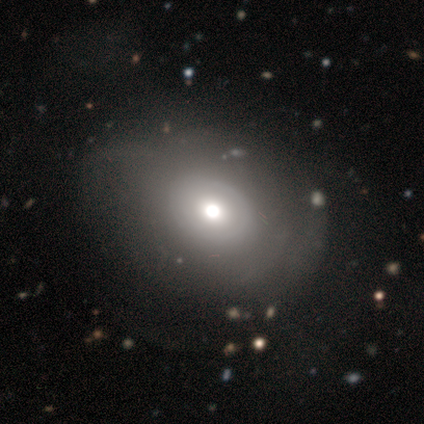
A smooth galaxy with no disk features (50%, tied with featured or disk) that is in between round and cigar-shaped (100%).

Vote fractions:
- Smooth or featured? smooth: 50% (tied) / featured or disk: 50% (tied) / star or artifact: 0%
- How rounded? in between: 100% / round: 0% / cigar-shaped: 0%
- Merging? none: 75% / minor disturbance: 25% / major disturbance: 0% / merger: 0%